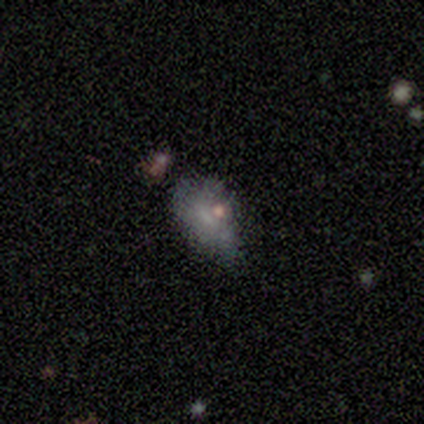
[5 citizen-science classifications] smooth_or_featured: smooth (p=0.60) [alt: featured or disk p=0.20]
how_rounded: in between (p=1.00)
merging: none (p=0.50) [tied with: minor disturbance p=0.50]